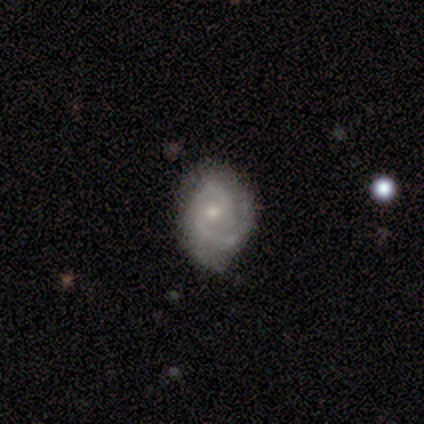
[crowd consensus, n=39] smooth_or_featured: featured or disk (p=0.79) [alt: smooth p=0.15]
disk_edge_on: no (p=1.00)
bar: weak (p=0.48) [tied with: no p=0.48]
has_spiral_arms: yes (p=0.97) [alt: no p=0.03]
spiral_winding: tight (p=0.47) [alt: medium p=0.40]
spiral_arm_count: 2 (p=0.80) [alt: 3 p=0.10]
bulge_size: small (p=0.65) [alt: moderate p=0.35]
merging: none (p=0.70) [alt: minor disturbance p=0.22]